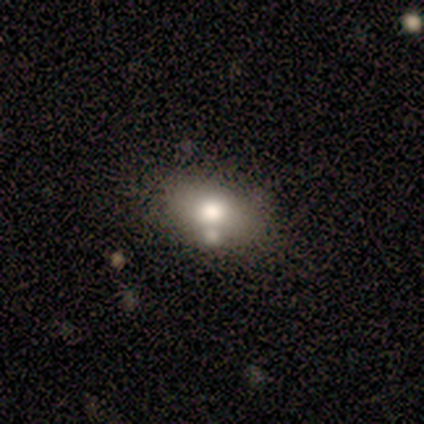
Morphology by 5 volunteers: This is clearly a smooth galaxy (80%). How rounded: likely in between (75%). Merging: clearly none (100%).